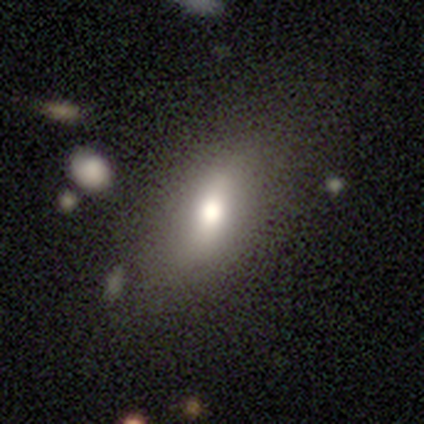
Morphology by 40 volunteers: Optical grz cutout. It shows a smooth galaxy with no disk features (68%) that is in between round and cigar-shaped (70%). Merging: none (79%).